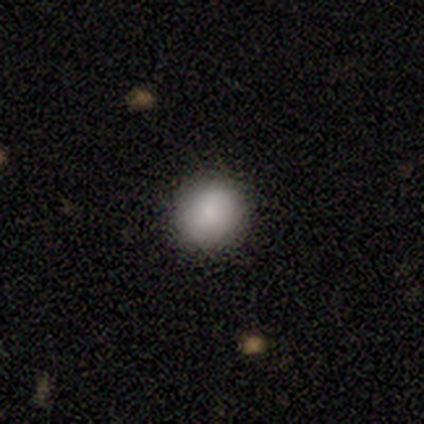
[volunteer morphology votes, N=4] A smooth galaxy with no disk features (75%) that is round (100%). Merging: none (67%).